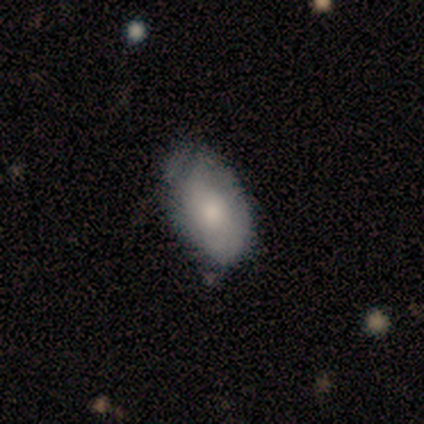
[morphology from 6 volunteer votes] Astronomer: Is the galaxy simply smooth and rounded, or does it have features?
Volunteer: smooth — 67%.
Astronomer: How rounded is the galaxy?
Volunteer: in between — 75%.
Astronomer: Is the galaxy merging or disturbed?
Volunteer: none — 60% (runner-up: minor disturbance, 40%).